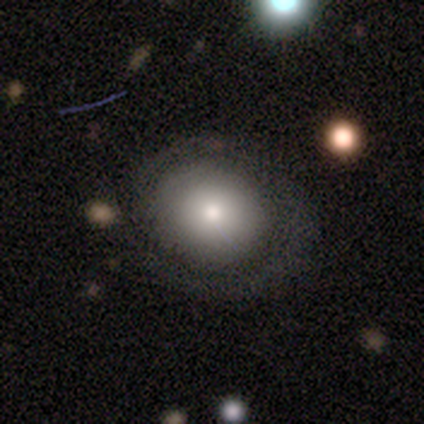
Morphology: type=smooth (60%); roundness=round (100%); merging=none (80%).